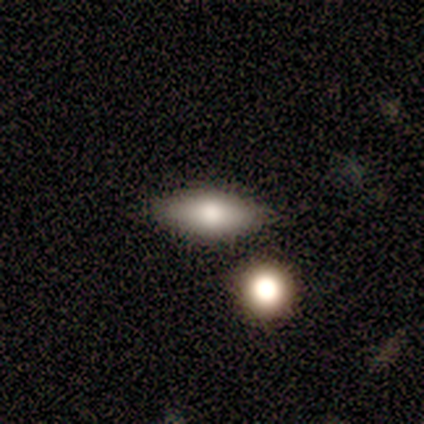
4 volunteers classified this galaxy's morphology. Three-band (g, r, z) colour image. It shows a smooth galaxy with no disk features (100%) that is in between round and cigar-shaped (75%). Merging: none (100%).